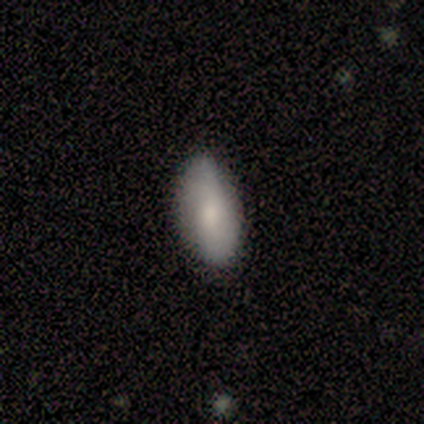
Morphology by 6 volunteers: Smooth or featured?
  - smooth: 67% *
  - featured or disk: 33%
  - star or artifact: 0%
How rounded?
  - in between: 100% *
  - round: 0%
  - cigar-shaped: 0%
Merging?
  - none: 83% *
  - merger: 17%
  - minor disturbance: 0%
  - major disturbance: 0%